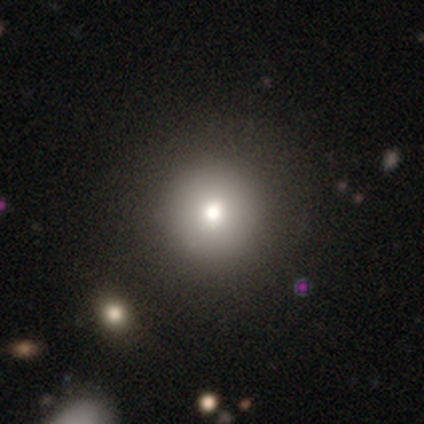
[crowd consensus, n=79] This is likely a smooth galaxy (75%). How rounded: clearly round (98%). Merging: marginally none (41%).